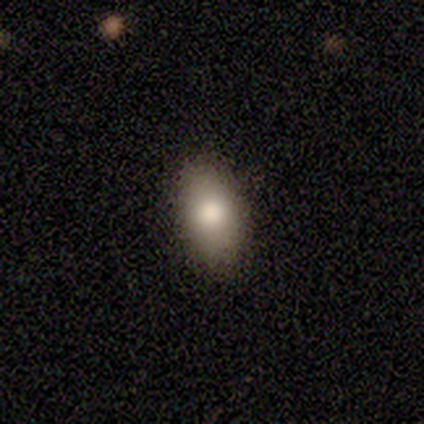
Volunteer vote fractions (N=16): Morphology: type=smooth (81%); roundness=in between (100%); merging=none (93%).